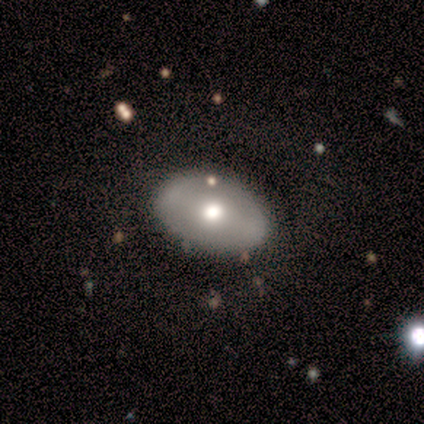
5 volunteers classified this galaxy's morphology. smooth-or-featured: featured or disk: 80% | smooth: 20% | star or artifact: 0%
  disk-edge-on: no: 100% | yes: 0%
    bar: strong: 50% (tied) | no: 50% (tied) | weak: 0%
    has-spiral-arms: no: 100% | yes: 0%
    bulge-size: moderate: 100% | dominant: 0% | large: 0% | small: 0% | none: 0%
  merging: none: 80% | minor disturbance: 20% | major disturbance: 0% | merger: 0%